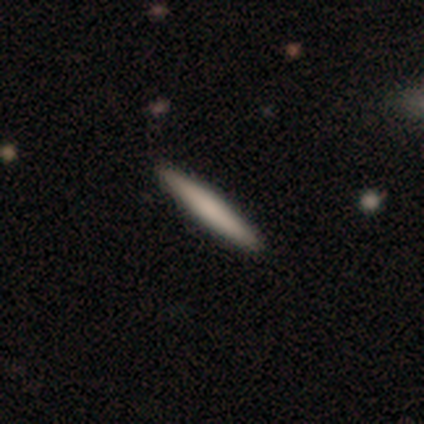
Smooth or featured: smooth — 60% (featured or disk — 40%)
How rounded: cigar-shaped — 100%
Merging: none — 100%